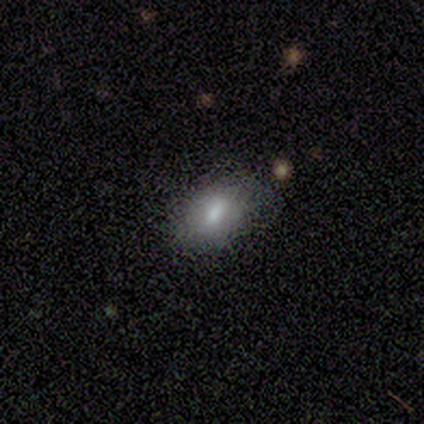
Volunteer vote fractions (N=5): This is marginally a smooth galaxy (40%, tied with featured or disk). How rounded: clearly in between (100%). Merging: likely none (75%).